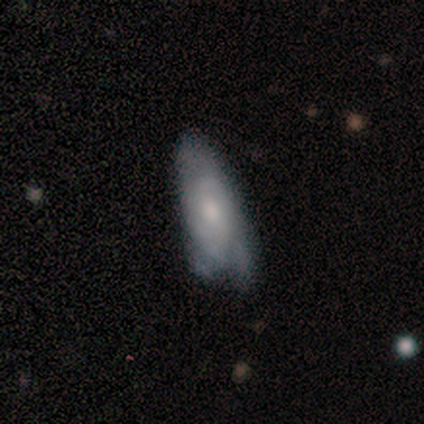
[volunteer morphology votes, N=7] Smooth or featured?
  - featured or disk: 86% *
  - smooth: 14%
  - star or artifact: 0%
Edge-on disk?
  - no: 83% *
  - yes: 17%
Bar?
  - no: 100% *
  - strong: 0%
  - weak: 0%
Spiral arms?
  - yes: 60% *
  - no: 40%
Spiral winding?
  - medium: 67% *
  - tight: 33%
  - loose: 0%
Spiral arm count?
  - can't tell: 67% *
  - 2: 33%
  - 1: 0%
  - 3: 0%
  - 4: 0%
  - more than 4: 0%
Bulge size?
  - moderate: 80% *
  - small: 20%
  - dominant: 0%
  - large: 0%
  - none: 0%
Merging?
  - minor disturbance: 43% *
  - none: 29%
  - major disturbance: 29%
  - merger: 0%